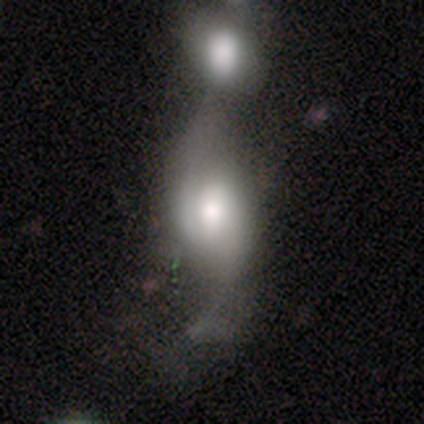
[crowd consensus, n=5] smooth_or_featured: smooth (p=0.60) [alt: featured or disk p=0.40]
how_rounded: in between (p=0.67) [alt: round p=0.33]
merging: merger (p=0.80) [alt: none p=0.20]